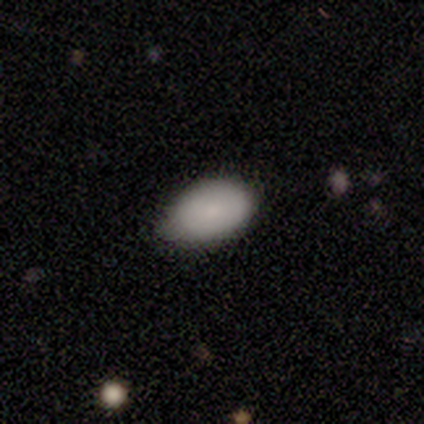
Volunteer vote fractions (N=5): smooth-or-featured: smooth: 100% | featured or disk: 0% | star or artifact: 0%
  how-rounded: in between: 100% | round: 0% | cigar-shaped: 0%
  merging: none: 80% | minor disturbance: 20% | major disturbance: 0% | merger: 0%